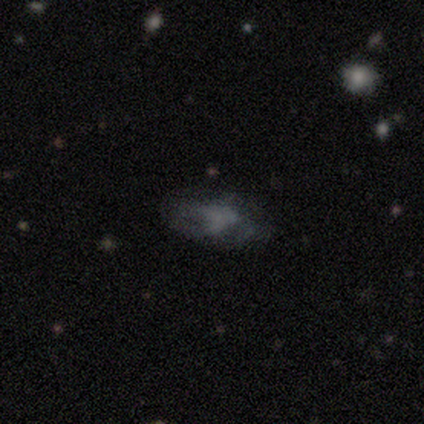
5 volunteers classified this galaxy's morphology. Smooth or featured? smooth (60%)
How rounded? in between (100%)
Merging? major disturbance (100%)